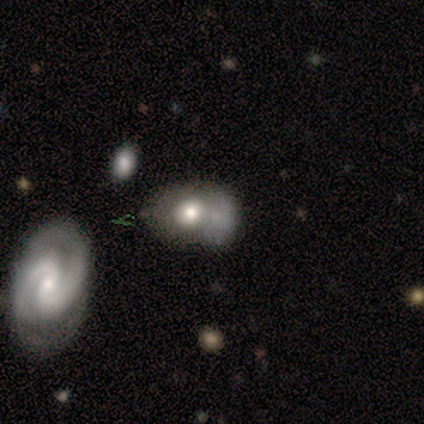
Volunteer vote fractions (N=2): Smooth or featured? 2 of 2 (100%) said smooth. How rounded? 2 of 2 (100%) said in between. Merging? 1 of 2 (50%, tied with merger) said minor disturbance.